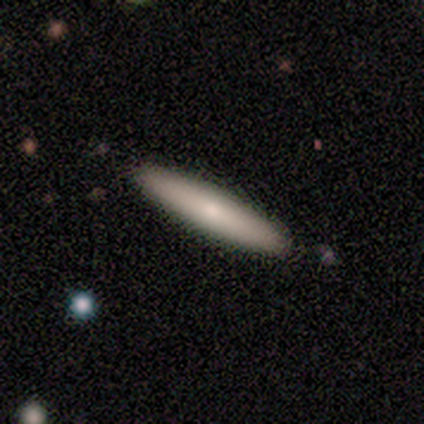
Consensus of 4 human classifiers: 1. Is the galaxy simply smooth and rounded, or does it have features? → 75% smooth, 25% star or artifact, 0% featured or disk.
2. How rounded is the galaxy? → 100% cigar-shaped, 0% round, 0% in between.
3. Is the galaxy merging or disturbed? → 100% none, 0% minor disturbance, 0% major disturbance, 0% merger.